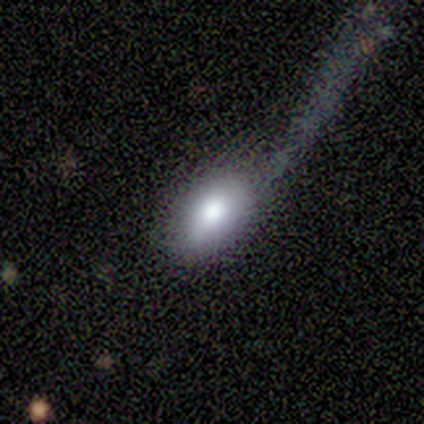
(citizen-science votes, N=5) Morphology: type=smooth (40%, tied with featured or disk); roundness=round (50%, tied with in between); merging=none (50%, tied with major disturbance).